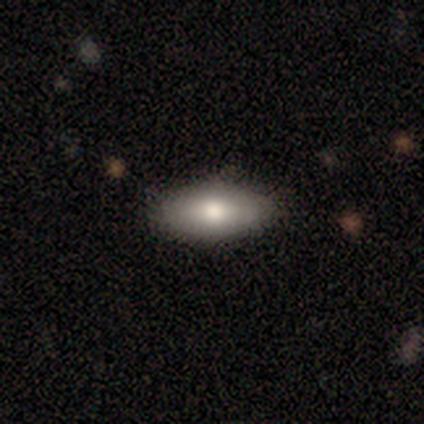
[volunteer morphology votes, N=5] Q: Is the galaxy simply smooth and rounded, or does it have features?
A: smooth — 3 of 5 (60%).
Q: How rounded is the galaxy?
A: in between — 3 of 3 (100%).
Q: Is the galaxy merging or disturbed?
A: none — 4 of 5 (80%).